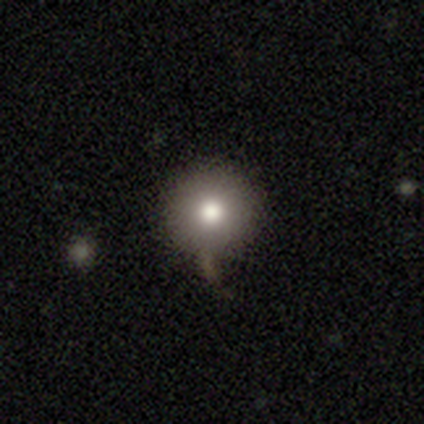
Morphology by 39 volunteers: Q: Smooth or featured?
A: smooth (85%); runner-up: featured or disk (8%)
Q: How rounded?
A: round (94%); runner-up: in between (3%)
Q: Merging?
A: none (81%); runner-up: minor disturbance (8%)